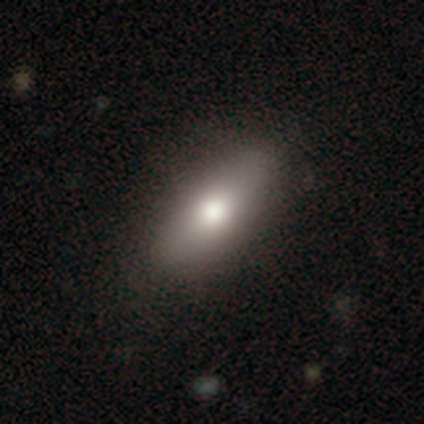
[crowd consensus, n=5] smooth_or_featured: smooth (p=0.60) [alt: featured or disk p=0.40]
how_rounded: in between (p=1.00)
merging: none (p=1.00)